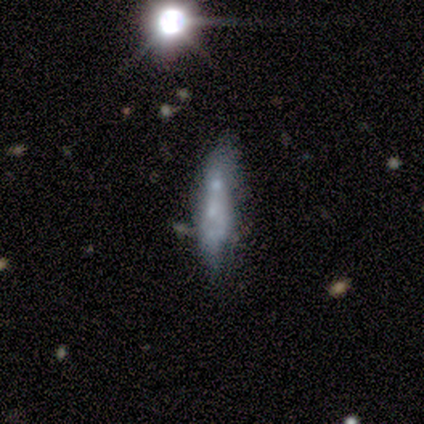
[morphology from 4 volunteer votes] Smooth or featured?
  - smooth: 50% * (tied)
  - featured or disk: 50% * (tied)
  - star or artifact: 0%
How rounded?
  - cigar-shaped: 100% *
  - round: 0%
  - in between: 0%
Merging?
  - none: 50% *
  - minor disturbance: 25%
  - merger: 25%
  - major disturbance: 0%